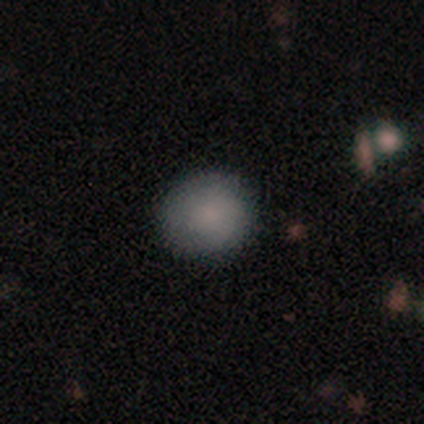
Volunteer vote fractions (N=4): A smooth galaxy with no disk features (100%) that is round (100%). Merging: none (100%).